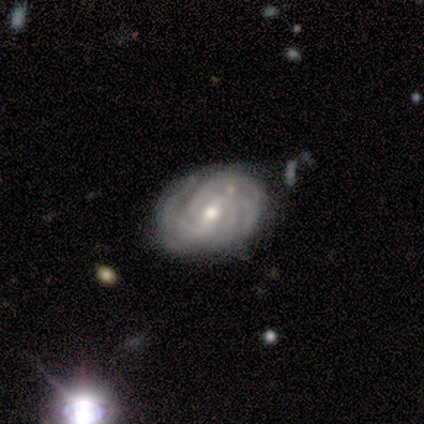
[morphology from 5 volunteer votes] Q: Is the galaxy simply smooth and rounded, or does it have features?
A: featured or disk — 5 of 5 (100%).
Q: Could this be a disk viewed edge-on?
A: no — 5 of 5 (100%).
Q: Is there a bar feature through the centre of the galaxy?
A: weak — 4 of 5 (80%).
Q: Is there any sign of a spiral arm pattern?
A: yes — 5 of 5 (100%).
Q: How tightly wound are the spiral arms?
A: tight — 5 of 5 (100%).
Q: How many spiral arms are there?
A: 4 — 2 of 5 (40%, tied with more than 4).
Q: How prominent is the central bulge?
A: small — 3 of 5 (60%).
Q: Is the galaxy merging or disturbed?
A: none — 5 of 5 (100%).